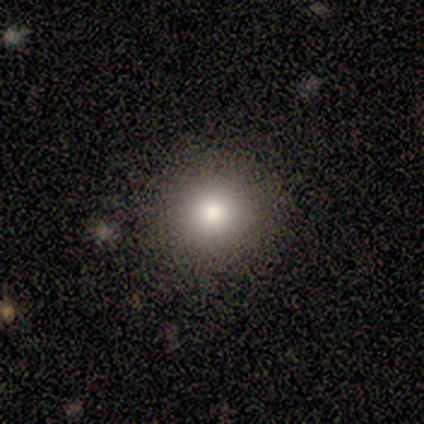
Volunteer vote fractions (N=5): smooth 40% (tied), star or artifact 40% (tied), featured or disk 20%. Down the decision tree: how rounded — round (100%); merging — none (67%).